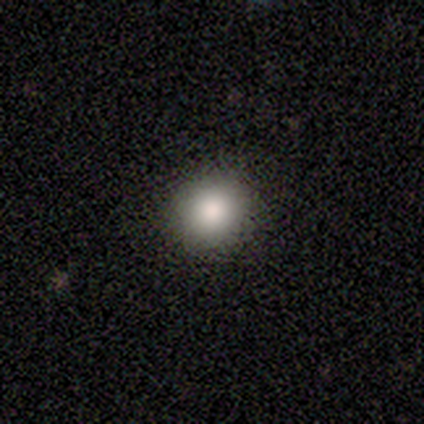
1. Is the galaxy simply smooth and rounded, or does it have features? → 67% smooth, 33% star or artifact, 0% featured or disk.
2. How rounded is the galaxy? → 100% round, 0% in between, 0% cigar-shaped.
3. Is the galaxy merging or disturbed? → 100% none, 0% minor disturbance, 0% major disturbance, 0% merger.